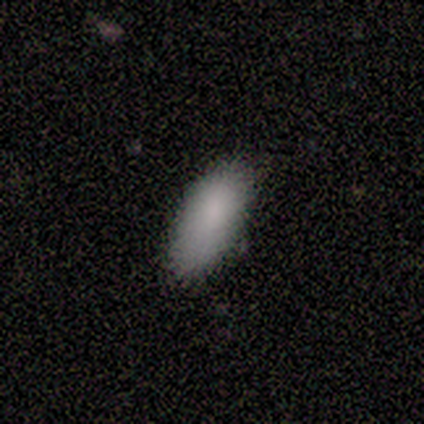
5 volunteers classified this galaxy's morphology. This is clearly a smooth galaxy (100%). How rounded: clearly in between (80%). Merging: clearly none (80%).